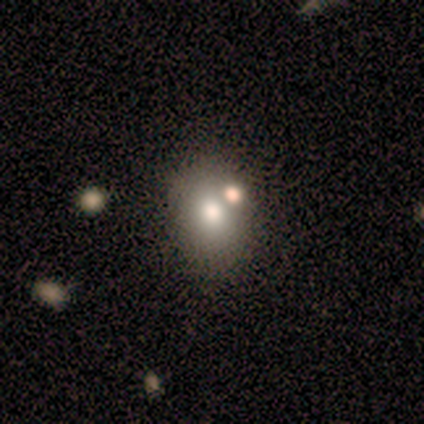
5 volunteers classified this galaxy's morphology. A smooth galaxy with no disk features (80%) that is round (75%). Merging: none (40%, tied with merger).